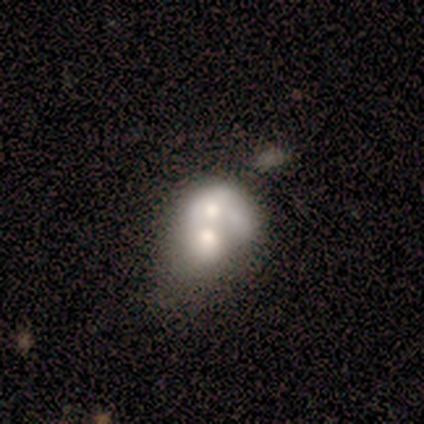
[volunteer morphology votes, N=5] smooth_or_featured: featured or disk (p=0.60) [alt: smooth p=0.40]
disk_edge_on: no (p=1.00)
bar: no (p=1.00)
has_spiral_arms: no (p=1.00)
bulge_size: moderate (p=1.00)
merging: merger (p=0.80) [alt: minor disturbance p=0.20]